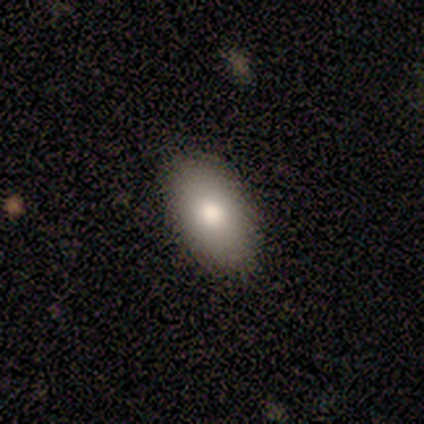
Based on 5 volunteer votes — This is clearly a smooth galaxy (100%). How rounded: clearly in between (100%). Merging: clearly none (100%).